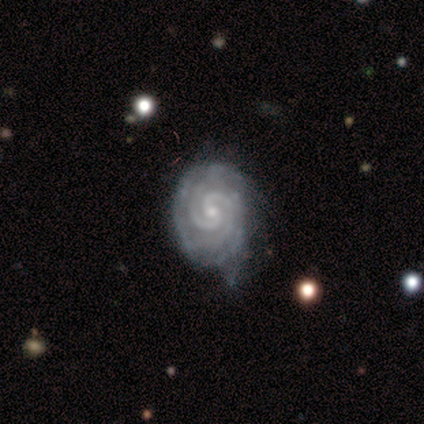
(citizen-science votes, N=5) Overall: featured or disk (100%). Edge-on disk: no (100%). Bar: no (100%). Spiral arms: yes (100%). Spiral arm count: 2 (80%). Spiral winding: tight (100%). Bulge size: small (100%). Merging: none (60%; minor disturbance 40%).